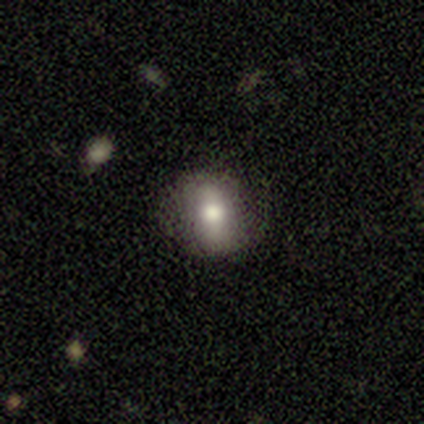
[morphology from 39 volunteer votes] Volunteers were most divided on "how rounded": in between: 57%, round: 39%, cigar-shaped: 4%. More confident: merging — none (71%); smooth or featured — smooth (59%).